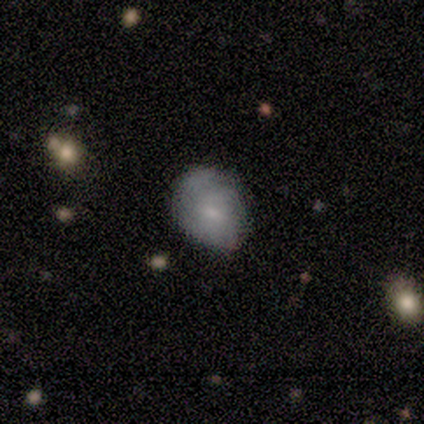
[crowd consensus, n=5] smooth_or_featured: smooth (p=0.60) [alt: featured or disk p=0.40]
how_rounded: in between (p=1.00)
merging: none (p=0.80) [alt: minor disturbance p=0.20]